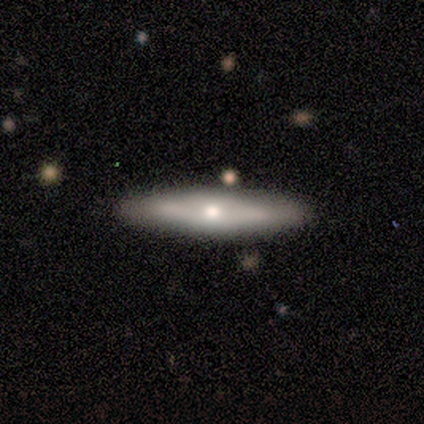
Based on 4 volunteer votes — Morphology: type=featured or disk (75%); edge-on=no (67%); bar=no (100%); spiral arms=no (100%); bulge=small (100%); merging=none (75%).